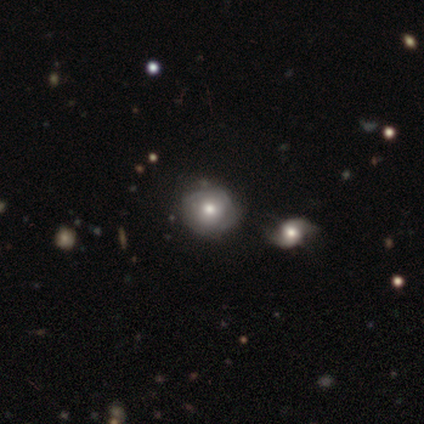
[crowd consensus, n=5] Q: Smooth or featured?
A: featured or disk (60%); runner-up: smooth (40%)
Q: Edge-on disk?
A: no (100%)
Q: Bar?
A: no (67%); runner-up: weak (33%)
Q: Spiral arms?
A: no (67%); runner-up: yes (33%)
Q: Bulge size?
A: moderate (100%)
Q: Merging?
A: none (80%); runner-up: minor disturbance (20%)